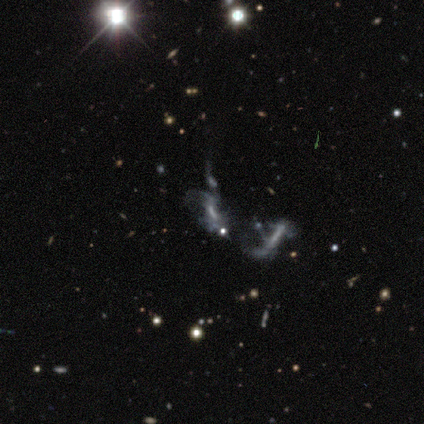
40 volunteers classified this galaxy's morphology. Q: Smooth or featured?
A: featured or disk (48%); runner-up: star or artifact (30%)
Q: Edge-on disk?
A: no (100%)
Q: Bar?
A: no (79%); runner-up: weak (16%)
Q: Spiral arms?
A: no (79%); runner-up: yes (21%)
Q: Bulge size?
A: none (63%); runner-up: small (32%)
Q: Merging?
A: merger (61%); runner-up: major disturbance (25%)